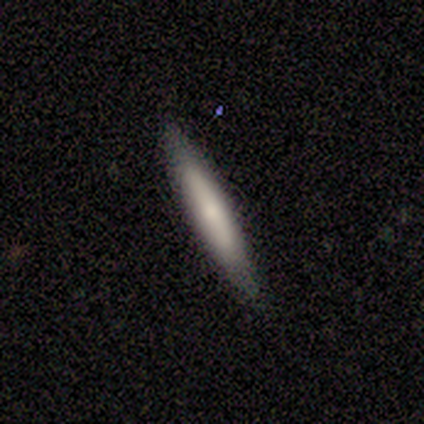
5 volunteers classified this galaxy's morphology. Smooth or featured? smooth (60%)
How rounded? cigar-shaped (100%)
Merging? none (80%)